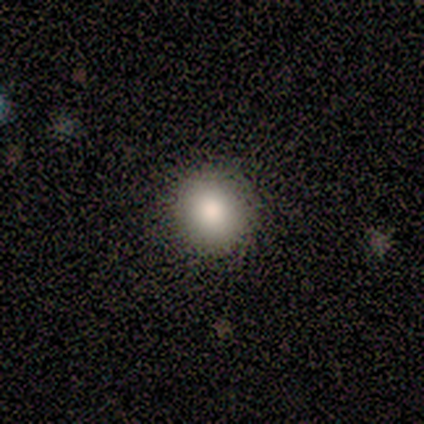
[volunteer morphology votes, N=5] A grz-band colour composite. It shows a smooth galaxy with no disk features (80%) that is round (100%). Merging: none (100%).